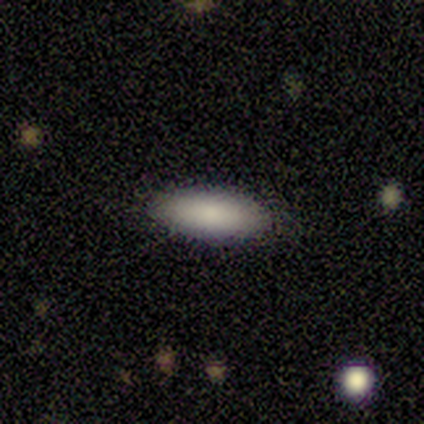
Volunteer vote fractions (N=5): Q: Smooth or featured?
A: smooth (100%)
Q: How rounded?
A: in between (100%)
Q: Merging?
A: none (100%)